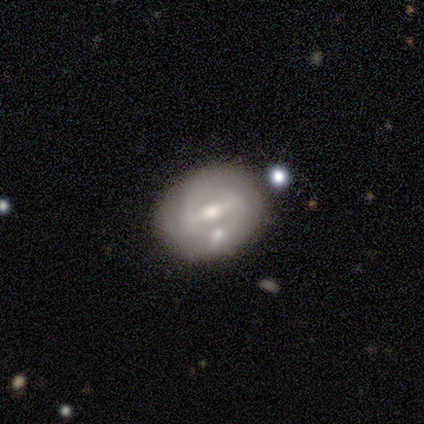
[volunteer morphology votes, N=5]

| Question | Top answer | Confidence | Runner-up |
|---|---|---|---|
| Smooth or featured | featured or disk | 60% | smooth (20%) |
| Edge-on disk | no | 100% | — |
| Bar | strong | 67% | weak (33%) |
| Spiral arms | no | 67% | yes (33%) |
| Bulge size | moderate | 67% | small (33%) |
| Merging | none | 75% | minor disturbance (25%) |